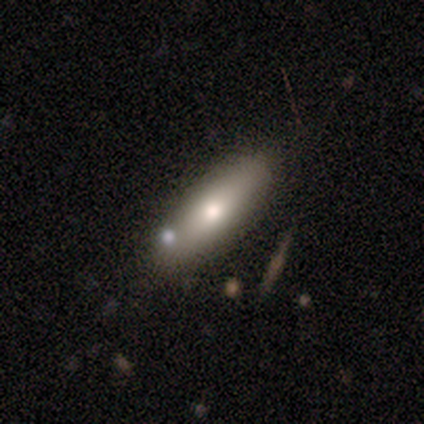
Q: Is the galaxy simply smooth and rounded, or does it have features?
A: smooth — 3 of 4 (75%).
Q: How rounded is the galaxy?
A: cigar-shaped — 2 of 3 (67%).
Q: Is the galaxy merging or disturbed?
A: none — 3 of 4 (75%).